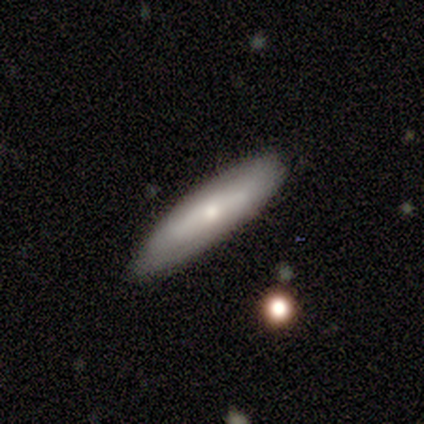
Overall: smooth (78%). How rounded: in between (57%; cigar-shaped 43%). Merging: none (78%).